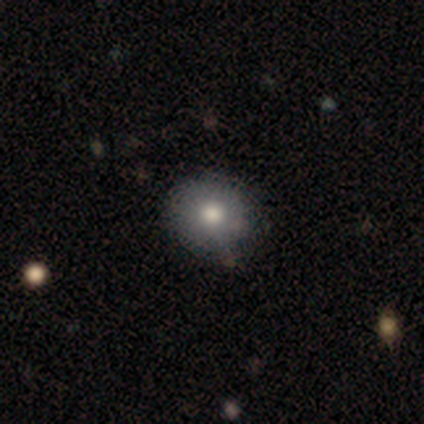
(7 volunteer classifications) smooth_or_featured: smooth (p=0.86) [alt: featured or disk p=0.14]
how_rounded: round (p=1.00)
merging: none (p=1.00)